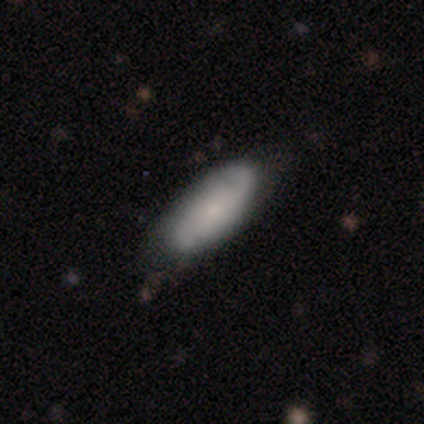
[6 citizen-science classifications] Morphology: type=featured or disk (67%); edge-on=no (100%); bar=no (75%); spiral arms=yes (100%); winding=tight (50%, tied with medium); arm count=2 (100%); bulge=small (50%); merging=none (83%).